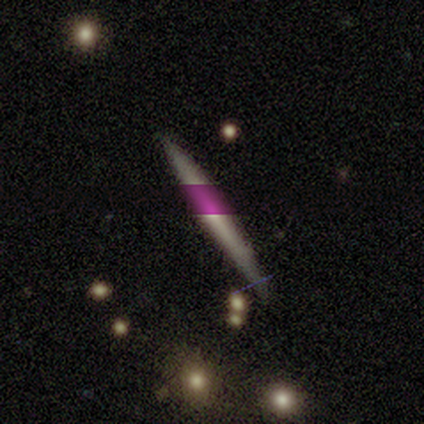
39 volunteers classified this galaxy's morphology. Smooth or featured? 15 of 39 (38%) said featured or disk. Edge-on disk? 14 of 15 (93%) said yes. Edge-on bulge? 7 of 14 (50%, tied with rounded) said none. Merging? 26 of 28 (93%) said none.